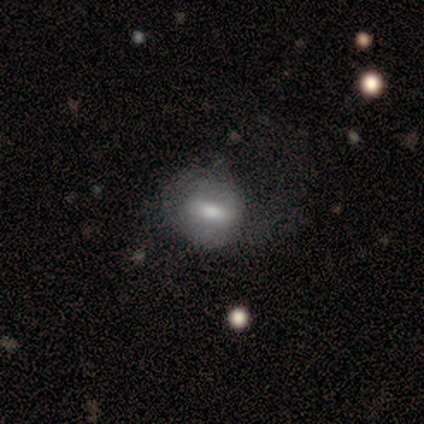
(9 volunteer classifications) This appears to be a smooth galaxy with no disk features (56%) that is in between round and cigar-shaped (80%). Merging: none (50%).